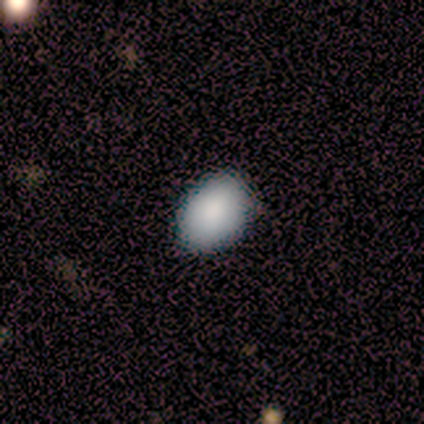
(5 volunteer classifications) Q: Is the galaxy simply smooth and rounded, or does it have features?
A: smooth — 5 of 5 (100%).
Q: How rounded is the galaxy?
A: in between — 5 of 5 (100%).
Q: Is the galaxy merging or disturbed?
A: none — 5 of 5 (100%).